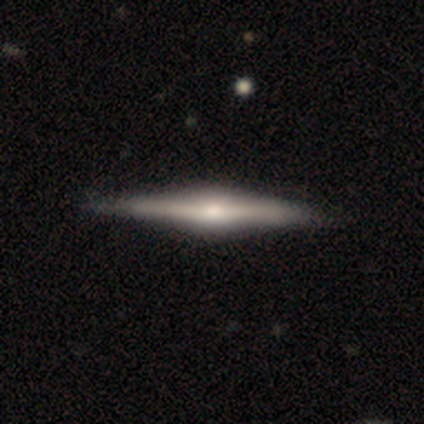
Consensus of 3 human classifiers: smooth 33% (tied), featured or disk 33% (tied), star or artifact 33% (tied). Down the decision tree: how rounded — cigar-shaped (100%); merging — none (100%).